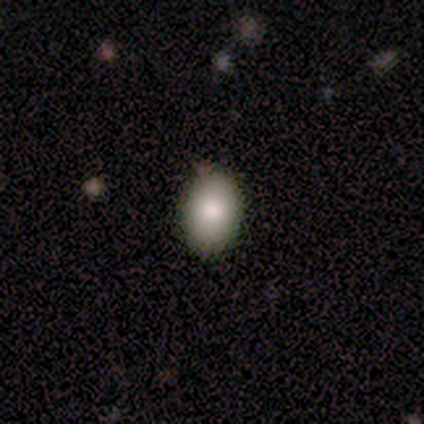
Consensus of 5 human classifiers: Overall: smooth (100%). How rounded: in between (80%). Merging: none (80%).